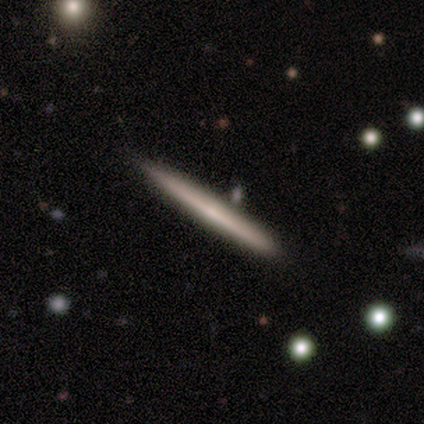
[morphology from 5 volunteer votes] This appears to be a featured or disk galaxy (80%) viewed edge-on (100%) with no central bulge (100%). Merging: none (80%).